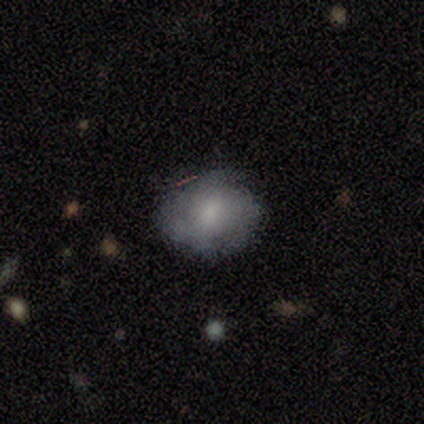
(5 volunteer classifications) Overall: smooth (60%; featured or disk 40%). How rounded: round (100%). Merging: minor disturbance (60%; none 40%).